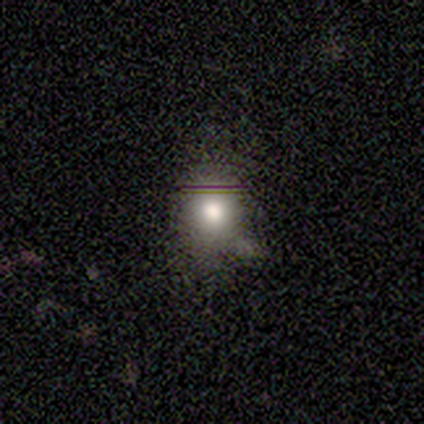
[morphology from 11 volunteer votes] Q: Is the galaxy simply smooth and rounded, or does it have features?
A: smooth — 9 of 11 (82%).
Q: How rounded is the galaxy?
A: round — 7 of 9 (78%).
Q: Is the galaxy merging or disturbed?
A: none — 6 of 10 (60%).